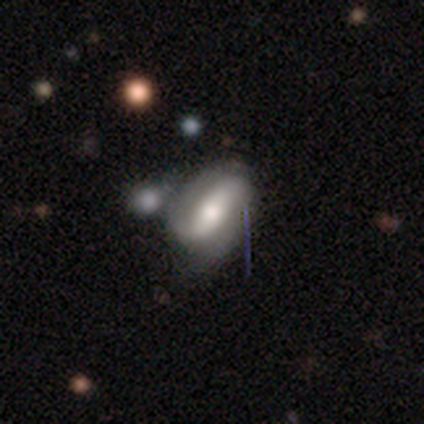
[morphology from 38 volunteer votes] A featured or disk galaxy (55%) with a strong bar (60%), 2 (81%) medium (56%) spiral arms (80%) and a moderate central bulge (50%). Merging: none (33%, tied with minor disturbance).